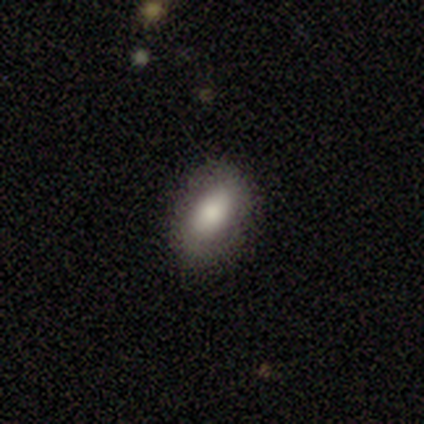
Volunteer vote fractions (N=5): smooth_or_featured: smooth (p=1.00)
how_rounded: in between (p=0.80) [alt: round p=0.20]
merging: none (p=0.80) [alt: minor disturbance p=0.20]